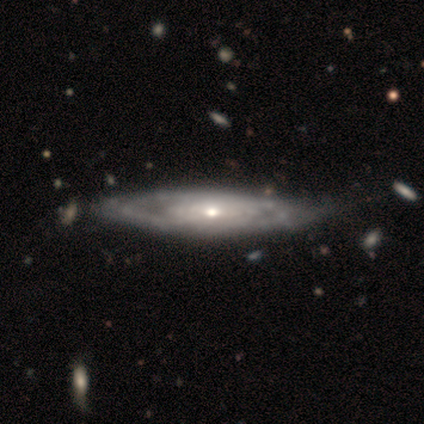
Volunteers were most divided on "edge-on disk" (2-way tie): yes: 50%, no: 50%. More confident: edge-on bulge — rounded (100%); smooth or featured — featured or disk (80%); merging — none (60%).